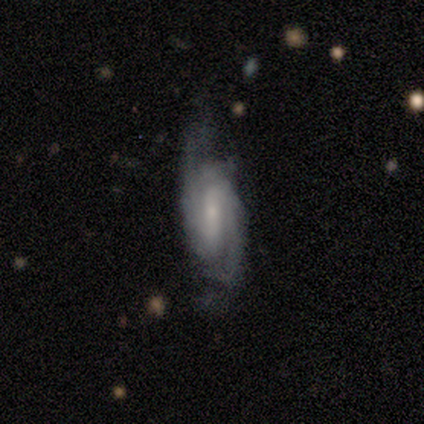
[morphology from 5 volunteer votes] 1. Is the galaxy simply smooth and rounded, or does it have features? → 80% featured or disk, 20% smooth, 0% star or artifact.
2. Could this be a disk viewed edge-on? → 100% no, 0% yes.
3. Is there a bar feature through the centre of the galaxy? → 100% weak, 0% strong, 0% no.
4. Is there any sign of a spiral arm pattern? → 100% yes, 0% no.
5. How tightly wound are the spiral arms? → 50% medium, 25% tight, 25% loose.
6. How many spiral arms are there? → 75% 2, 25% can't tell, 0% 1, 0% 3, 0% 4, 0% more than 4.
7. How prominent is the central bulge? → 75% small, 25% moderate, 0% dominant, 0% large, 0% none.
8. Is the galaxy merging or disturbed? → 60% none, 20% minor disturbance, 20% major disturbance, 0% merger.